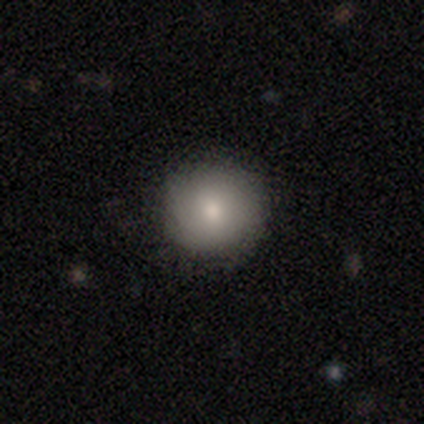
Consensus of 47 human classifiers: Smooth or featured? smooth (87%)
How rounded? round (98%)
Merging? none (91%)